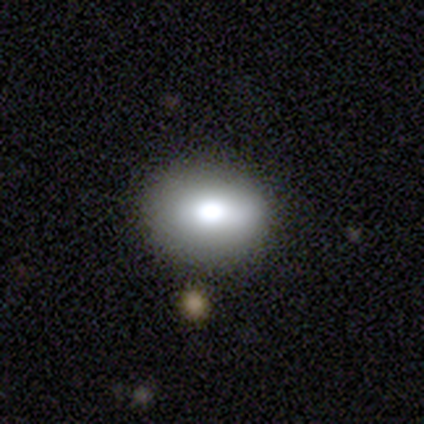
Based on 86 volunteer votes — Q: Smooth or featured?
A: smooth (72%); runner-up: featured or disk (21%)
Q: How rounded?
A: in between (58%); runner-up: round (42%)
Q: Merging?
A: none (81%); runner-up: minor disturbance (14%)